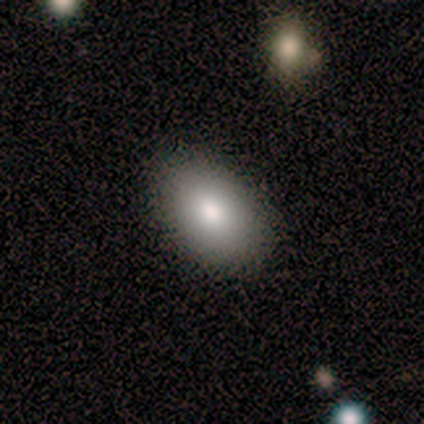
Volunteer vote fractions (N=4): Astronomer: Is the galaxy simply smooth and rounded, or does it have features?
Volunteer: smooth — 75%.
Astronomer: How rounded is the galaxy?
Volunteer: in between — 100%.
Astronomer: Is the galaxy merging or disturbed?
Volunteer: none — 75%.